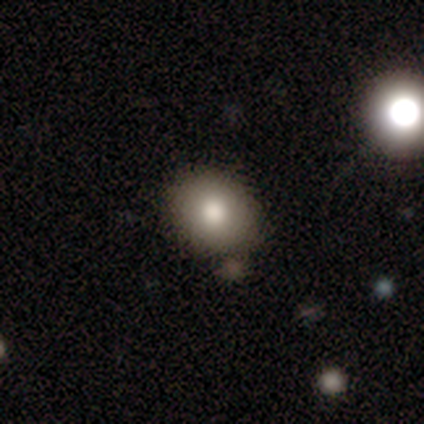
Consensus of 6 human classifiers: This appears to be a smooth galaxy with no disk features (100%) that is round (83%). Merging: none (83%).